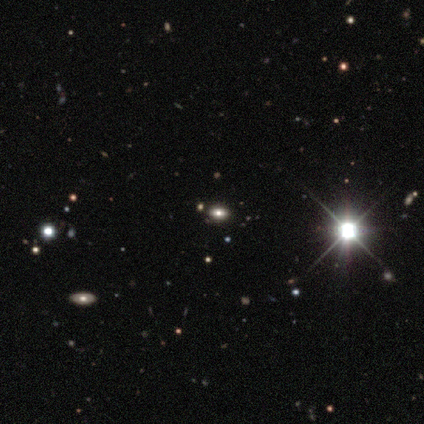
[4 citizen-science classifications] smooth_or_featured: star or artifact (p=0.75) [alt: smooth p=0.25]